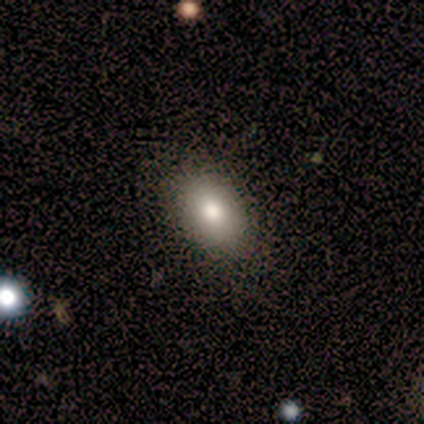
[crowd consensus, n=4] A smooth galaxy with no disk features (100%) that is in between round and cigar-shaped (100%).

Vote fractions:
- Smooth or featured? smooth: 100% / featured or disk: 0% / star or artifact: 0%
- How rounded? in between: 100% / round: 0% / cigar-shaped: 0%
- Merging? none: 100% / minor disturbance: 0% / major disturbance: 0% / merger: 0%